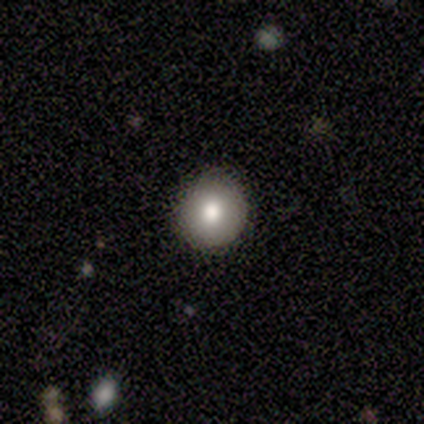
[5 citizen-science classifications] Overall: smooth (80%). How rounded: round (100%). Merging: none (100%).